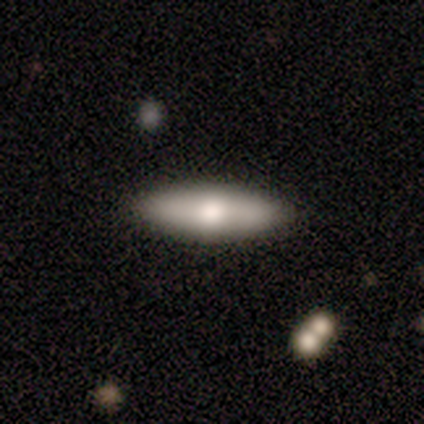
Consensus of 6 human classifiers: smooth_or_featured: smooth (p=0.50) [tied with: featured or disk p=0.50]
how_rounded: cigar-shaped (p=1.00)
merging: none (p=0.83) [alt: minor disturbance p=0.17]